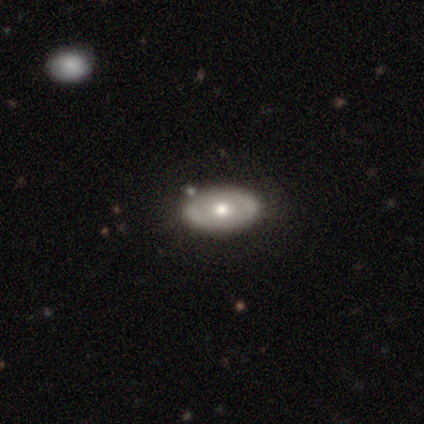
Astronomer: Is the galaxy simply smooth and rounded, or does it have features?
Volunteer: smooth — 80%.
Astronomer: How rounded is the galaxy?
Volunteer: in between — 75%.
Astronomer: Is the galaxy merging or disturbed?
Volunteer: none — 100%.